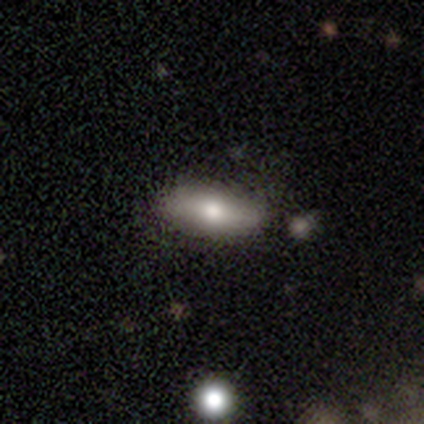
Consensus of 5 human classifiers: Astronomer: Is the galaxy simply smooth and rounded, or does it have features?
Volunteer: smooth — 60%.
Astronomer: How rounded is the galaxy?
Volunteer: in between — 100%.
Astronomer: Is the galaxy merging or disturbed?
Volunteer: none — 100%.